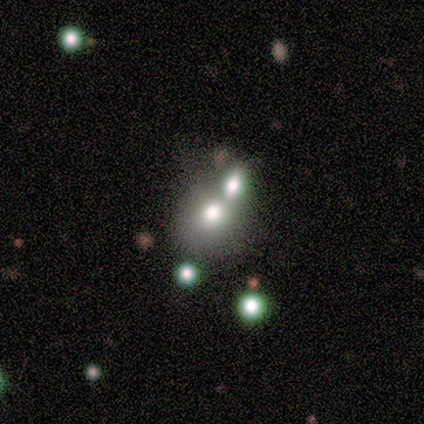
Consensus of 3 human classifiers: This is clearly a smooth galaxy (100%). How rounded: marginally round (33%, tied with in between and cigar-shaped). Merging: clearly none (100%).